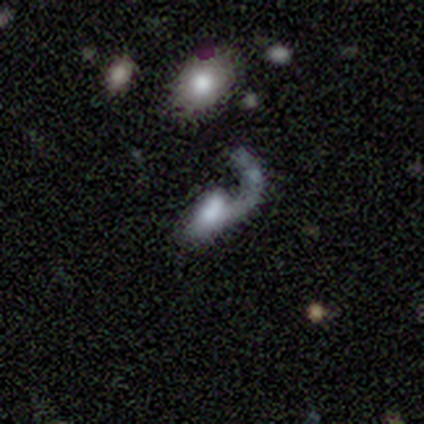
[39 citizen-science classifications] Volunteers were most divided on "bulge size": moderate: 32%, small: 27%, none: 27%, large: 9%, dominant: 5%. More confident: edge-on disk — no (100%); spiral arm count — 1 (100%); spiral winding — loose (75%); spiral arms — yes (73%); merging — major disturbance (57%); smooth or featured — featured or disk (56%); bar — no (55%).